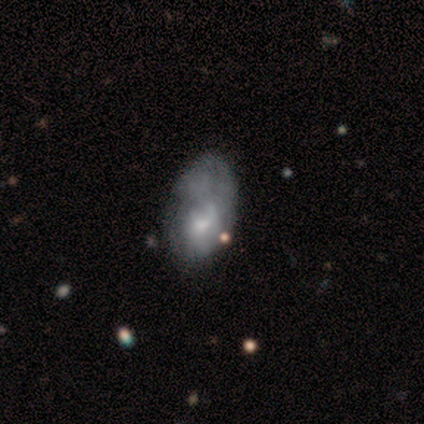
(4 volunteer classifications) Morphology: type=smooth (75%); roundness=in between (100%); merging=minor disturbance (67%).